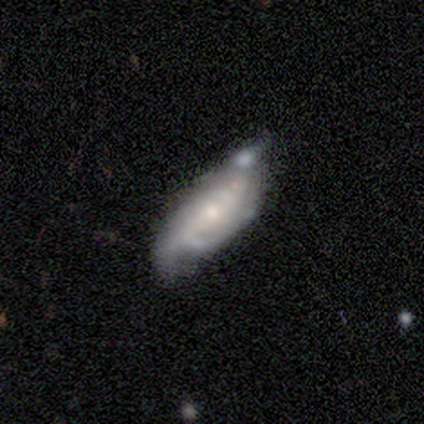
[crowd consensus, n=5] This is clearly a featured or disk galaxy (80%). It is clearly not viewed edge-on (100%). Bar: likely no (75%). Spiral arm pattern: likely yes (75%). Spiral arm count: likely 2 (67%). Spiral winding: likely loose (67%). Central bulge: clearly small (100%). Merging: marginally none (40%, tied with minor disturbance).